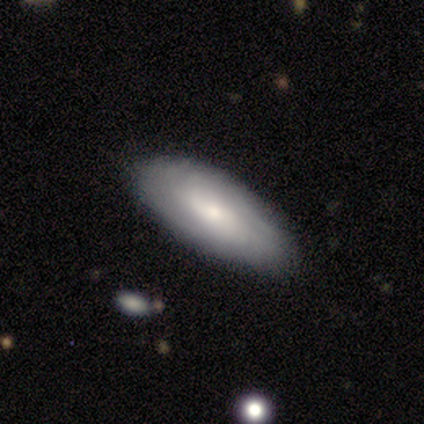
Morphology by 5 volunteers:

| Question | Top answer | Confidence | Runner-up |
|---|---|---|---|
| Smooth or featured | smooth | 80% | featured or disk (20%) |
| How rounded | in between | 100% | — |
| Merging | none | 60% | minor disturbance (40%) |